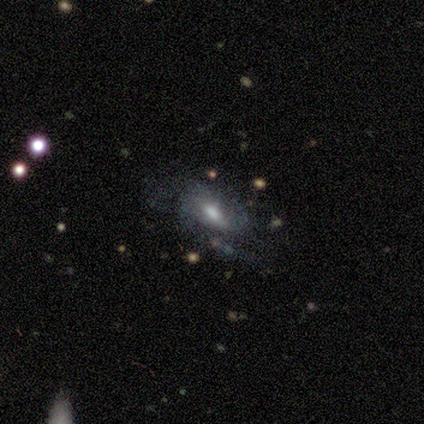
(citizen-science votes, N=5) Smooth or featured? featured or disk (60%)
Edge-on disk? no (100%)
Bar? weak (100%)
Spiral arms? no (67%)
Bulge size? large (33%, tied with moderate and none)
Merging? minor disturbance (40%)